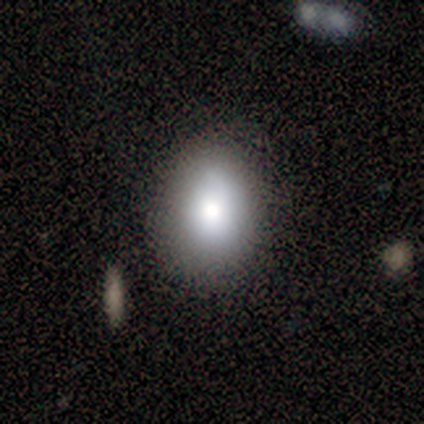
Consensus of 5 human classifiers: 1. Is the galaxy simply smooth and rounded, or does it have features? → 80% smooth, 20% star or artifact, 0% featured or disk.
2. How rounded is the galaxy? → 100% in between, 0% round, 0% cigar-shaped.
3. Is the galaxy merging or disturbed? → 100% none, 0% minor disturbance, 0% major disturbance, 0% merger.